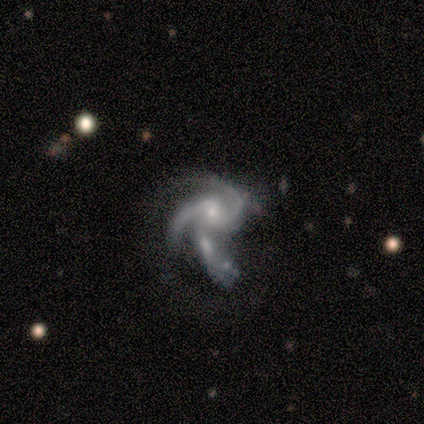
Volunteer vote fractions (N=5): Overall: featured or disk (100%). Edge-on disk: no (100%). Bar: no (60%; strong 20%). Spiral arms: yes (100%). Spiral arm count: 2 (60%; 3 40%). Spiral winding: medium (60%; loose 40%). Bulge size: small (80%). Merging: none (40%, tied with merger).